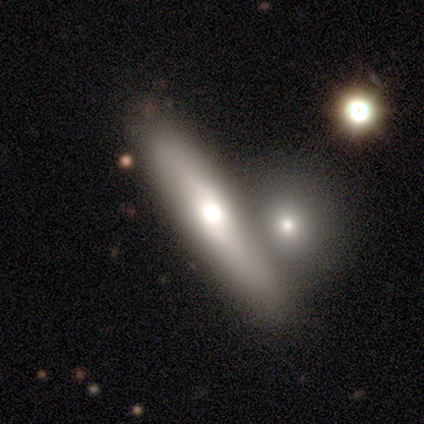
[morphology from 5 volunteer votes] Q: Smooth or featured?
A: smooth (60%); runner-up: featured or disk (40%)
Q: How rounded?
A: cigar-shaped (100%)
Q: Merging?
A: none (40%); tied with: merger (40%)